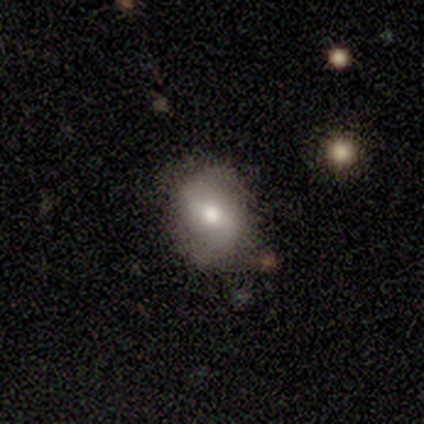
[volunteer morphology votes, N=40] Overall: featured or disk (62%; smooth 32%). Edge-on disk: no (100%). Bar: weak (52%; strong 28%). Spiral arms: yes (80%). Spiral arm count: 2 (95%). Spiral winding: loose (50%; medium 30%). Bulge size: moderate (64%). Merging: none (61%; minor disturbance 29%).